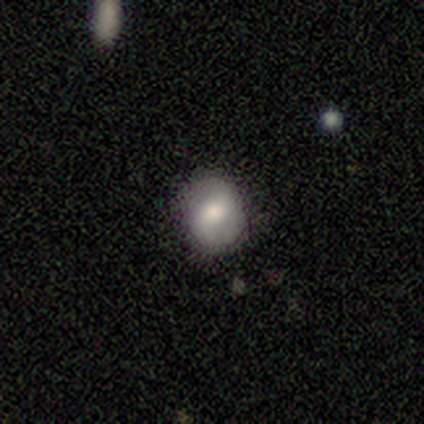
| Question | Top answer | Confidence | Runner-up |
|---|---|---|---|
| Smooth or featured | smooth | 64% | featured or disk (31%) |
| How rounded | round | 80% | in between (20%) |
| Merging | none | 92% | minor disturbance (8%) |